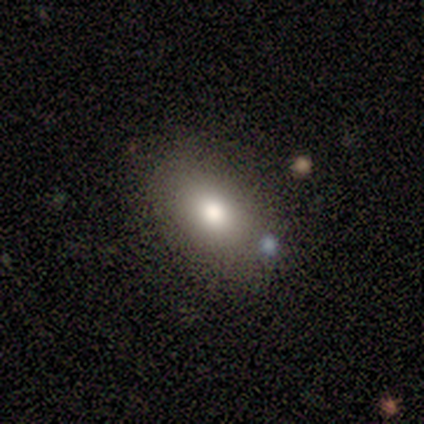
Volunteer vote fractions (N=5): Overall: smooth (100%). How rounded: in between (100%). Merging: none (80%).